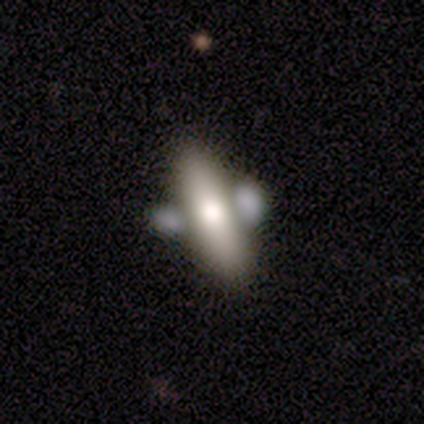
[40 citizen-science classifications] Smooth or featured: smooth — 55% (featured or disk — 35%)
How rounded: cigar-shaped — 55% (in between — 45%)
Merging: none — 50% (merger — 33%)